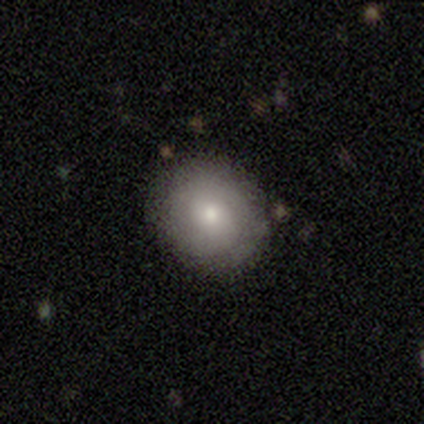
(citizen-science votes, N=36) Overall: smooth (61%; featured or disk 36%). How rounded: round (86%). Merging: none (60%; minor disturbance 37%).